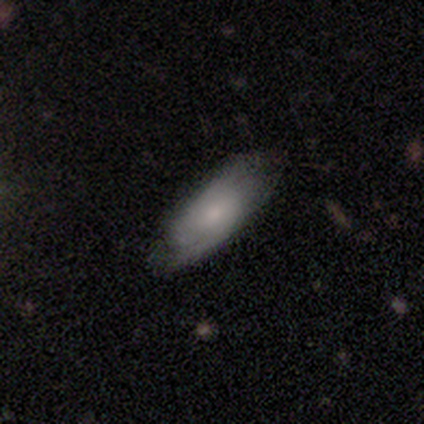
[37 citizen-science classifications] Smooth or featured?
  - featured or disk: 62% *
  - smooth: 38%
  - star or artifact: 0%
Edge-on disk?
  - no: 87% *
  - yes: 13%
Bar?
  - no: 70% *
  - weak: 30%
  - strong: 0%
Spiral arms?
  - yes: 85% *
  - no: 15%
Spiral winding?
  - medium: 65% *
  - tight: 29%
  - loose: 6%
Spiral arm count?
  - 2: 59% *
  - can't tell: 35%
  - 1: 6%
  - 3: 0%
  - 4: 0%
  - more than 4: 0%
Bulge size?
  - moderate: 45% *
  - small: 40%
  - none: 10%
  - large: 5%
  - dominant: 0%
Merging?
  - none: 73% *
  - minor disturbance: 22%
  - major disturbance: 5%
  - merger: 0%